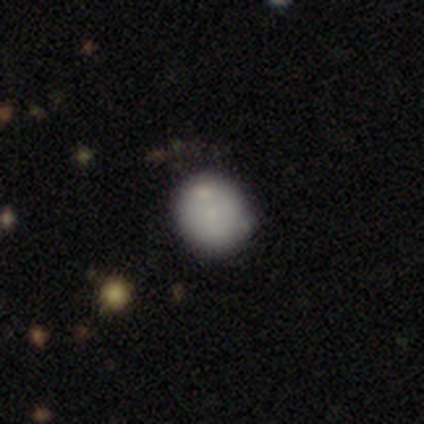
Smooth or featured? 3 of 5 (60%) said smooth. How rounded? 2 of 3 (67%) said round. Merging? 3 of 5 (60%) said none.